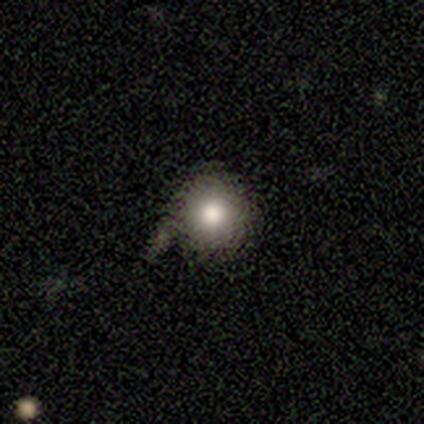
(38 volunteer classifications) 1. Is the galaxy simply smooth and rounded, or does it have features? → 79% smooth, 13% star or artifact, 8% featured or disk.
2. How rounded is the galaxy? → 97% round, 3% in between, 0% cigar-shaped.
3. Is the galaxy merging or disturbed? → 48% none, 27% minor disturbance, 12% major disturbance, 12% merger.